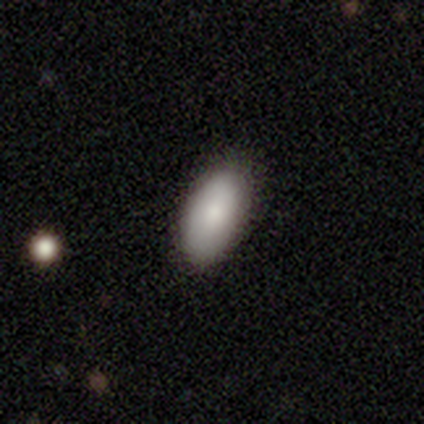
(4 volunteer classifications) This is likely a smooth galaxy (75%). How rounded: clearly in between (100%). Merging: possibly none (50%, tied with minor disturbance).